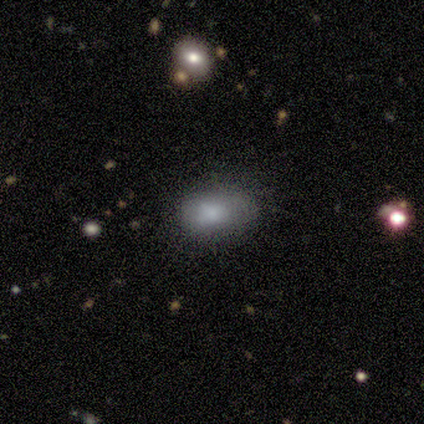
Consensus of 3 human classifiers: smooth_or_featured: smooth (p=0.67) [alt: star or artifact p=0.33]
how_rounded: in between (p=1.00)
merging: none (p=1.00)